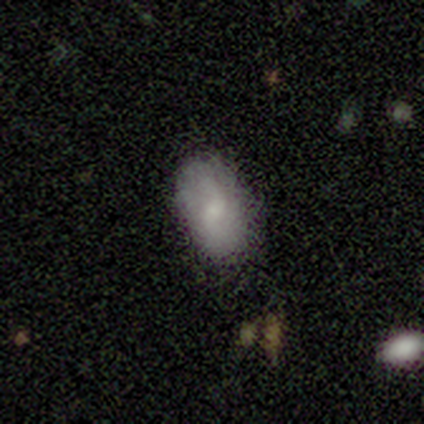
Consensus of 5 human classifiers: This appears to be a smooth galaxy with no disk features (80%) that is in between round and cigar-shaped (100%). Merging: none (80%).